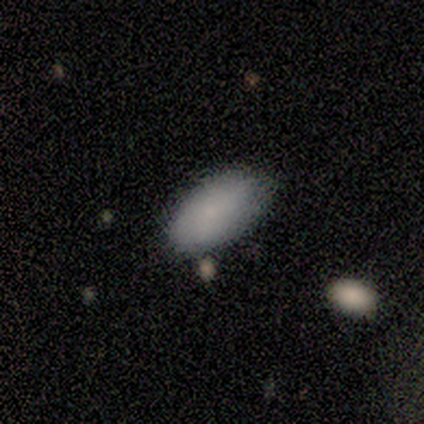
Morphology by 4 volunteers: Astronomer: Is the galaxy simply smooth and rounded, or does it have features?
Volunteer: smooth — 75%.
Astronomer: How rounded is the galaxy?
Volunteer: in between — 100%.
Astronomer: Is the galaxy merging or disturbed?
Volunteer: minor disturbance — 75%.